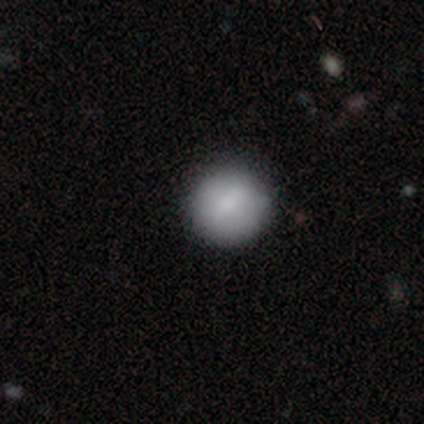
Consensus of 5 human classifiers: A smooth galaxy with no disk features (100%) that is round (100%).

Vote fractions:
- Smooth or featured? smooth: 100% / featured or disk: 0% / star or artifact: 0%
- How rounded? round: 100% / in between: 0% / cigar-shaped: 0%
- Merging? none: 100% / minor disturbance: 0% / major disturbance: 0% / merger: 0%